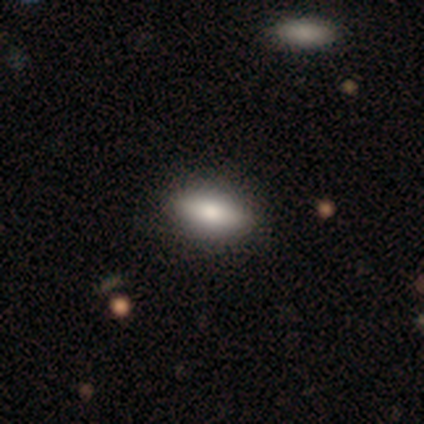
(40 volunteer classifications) Morphology: type=smooth (68%); roundness=in between (89%); merging=none (78%).